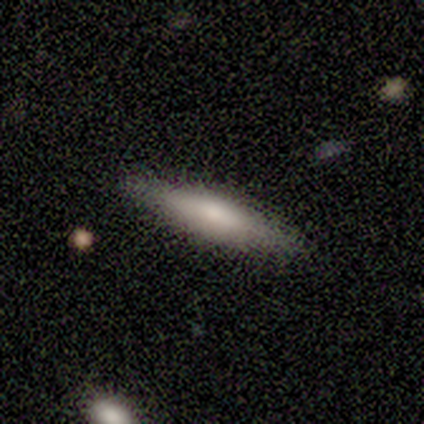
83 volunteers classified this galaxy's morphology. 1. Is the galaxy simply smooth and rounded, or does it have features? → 63% smooth, 33% featured or disk, 5% star or artifact.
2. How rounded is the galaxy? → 88% cigar-shaped, 10% in between, 2% round.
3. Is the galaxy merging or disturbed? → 95% none, 3% minor disturbance, 1% major disturbance, 1% merger.